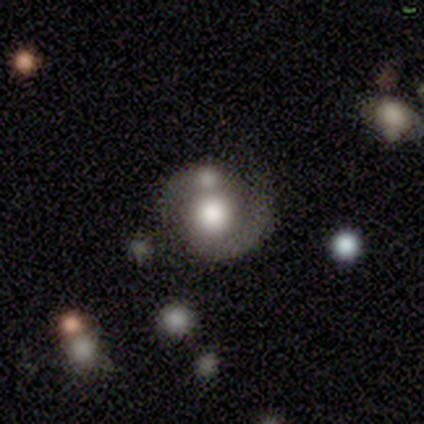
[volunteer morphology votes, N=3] featured or disk 67%, smooth 33%, star or artifact 0%. Down the decision tree: edge-on disk — no (100%); bar — no (100%); spiral arms — yes (100%); spiral arm count — 1 (100%); spiral winding — medium (100%); bulge size — moderate (50%, tied with small); merging — merger (67%).